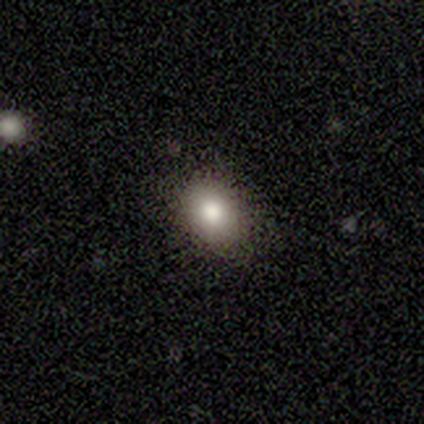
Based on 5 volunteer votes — smooth_or_featured: smooth (p=0.80) [alt: featured or disk p=0.20]
how_rounded: round (p=0.75) [alt: in between p=0.25]
merging: none (p=1.00)